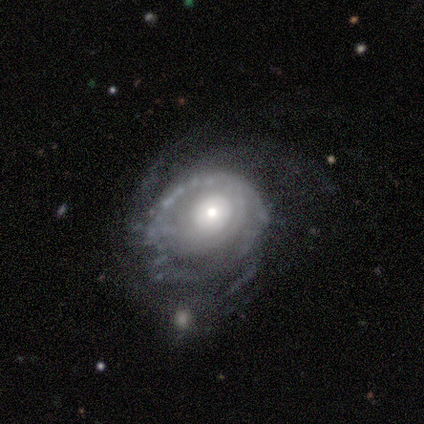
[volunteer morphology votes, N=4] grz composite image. It shows a featured or disk galaxy (100%) with no bar (100%), tight (67%) spiral arms (100%) and a large central bulge (100%). Merging: major disturbance (100%).